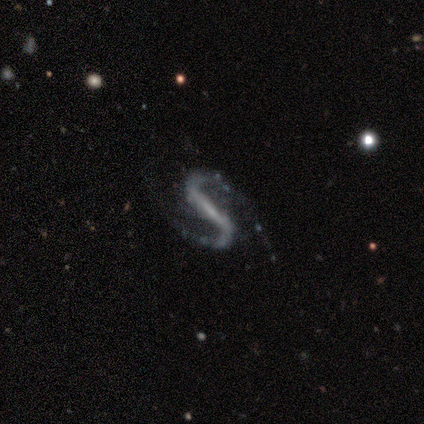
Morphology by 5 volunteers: Volunteers were most divided on "spiral winding": loose: 67%, medium: 33%, tight: 0%. More confident: edge-on disk — no (100%); spiral arm count — 2 (100%); smooth or featured — featured or disk (80%); bar — weak (75%); spiral arms — yes (75%); bulge size — none (75%); merging — none (75%).